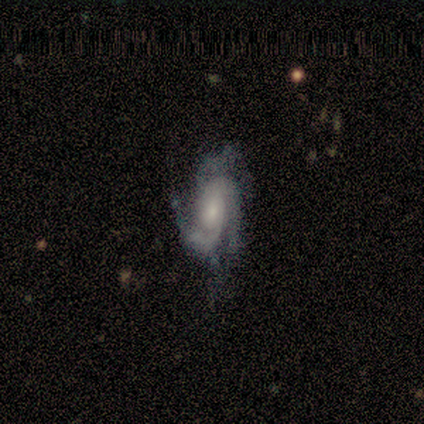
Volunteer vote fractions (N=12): A featured or disk galaxy (100%) with no bar (50%), 3 (50%) tight (50%) spiral arms (100%) and a moderate central bulge (50%). Merging: none (67%).